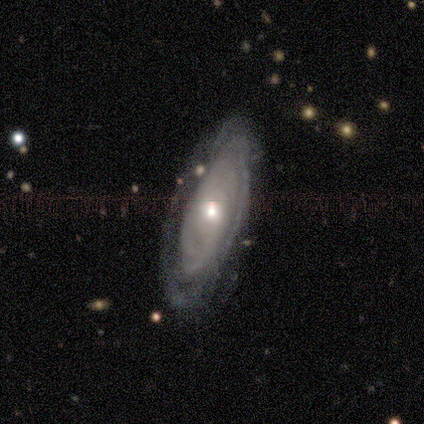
Smooth or featured? featured or disk (80%)
Edge-on disk? no (75%)
Bar? no (67%)
Spiral arms? yes (100%)
Spiral winding? tight (100%)
Spiral arm count? can't tell (100%)
Bulge size? large (33%, tied with moderate and small)
Merging? none (80%)